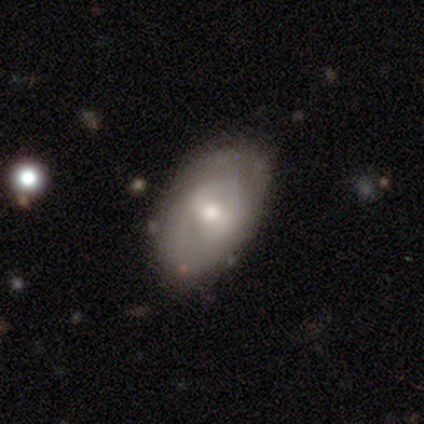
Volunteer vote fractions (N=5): Smooth or featured? 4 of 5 (80%) said featured or disk. Edge-on disk? 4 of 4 (100%) said no. Bar? 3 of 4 (75%) said weak. Spiral arms? 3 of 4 (75%) said yes. Spiral winding? 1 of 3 (33%, tied with medium and loose) said tight. Spiral arm count? 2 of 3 (67%) said can't tell. Bulge size? 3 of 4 (75%) said moderate. Merging? 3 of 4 (75%) said none.